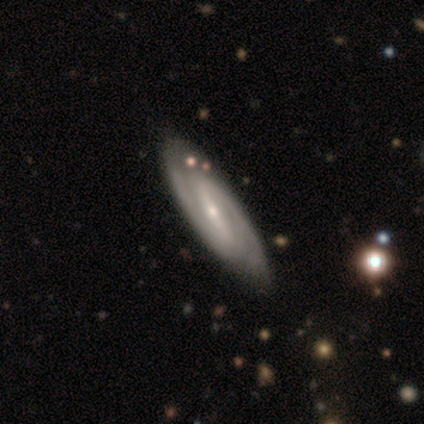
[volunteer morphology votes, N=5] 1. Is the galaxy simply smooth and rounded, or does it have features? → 80% featured or disk, 20% star or artifact, 0% smooth.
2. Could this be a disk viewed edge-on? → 100% no, 0% yes.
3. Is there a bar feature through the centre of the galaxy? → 75% strong, 25% no, 0% weak.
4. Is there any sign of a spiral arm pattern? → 75% yes, 25% no.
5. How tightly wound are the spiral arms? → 100% medium, 0% tight, 0% loose.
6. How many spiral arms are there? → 100% 2, 0% 1, 0% 3, 0% 4, 0% more than 4, 0% can't tell.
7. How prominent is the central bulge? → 100% small, 0% dominant, 0% large, 0% moderate, 0% none.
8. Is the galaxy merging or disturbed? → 100% none, 0% minor disturbance, 0% major disturbance, 0% merger.